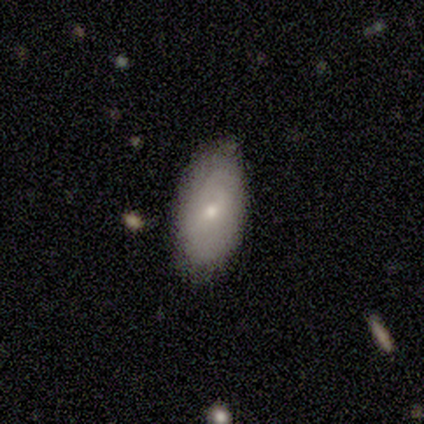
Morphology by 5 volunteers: Overall: smooth (80%). How rounded: in between (75%). Merging: none (100%).